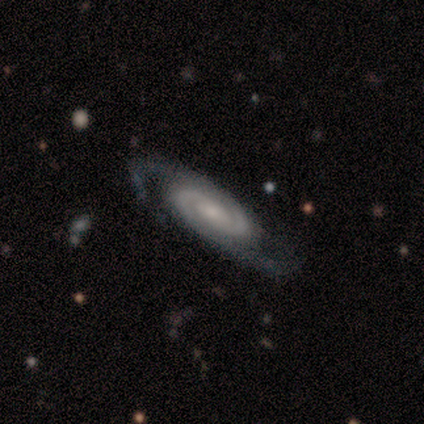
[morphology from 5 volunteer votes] featured or disk 80%, star or artifact 20%, smooth 0%. Down the decision tree: edge-on disk — no (100%); bar — weak (50%, tied with no); spiral arms — yes (100%); spiral arm count — 2 (75%); spiral winding — tight (50%, tied with medium); bulge size — large (25%, tied with moderate, small and none); merging — none (75%).